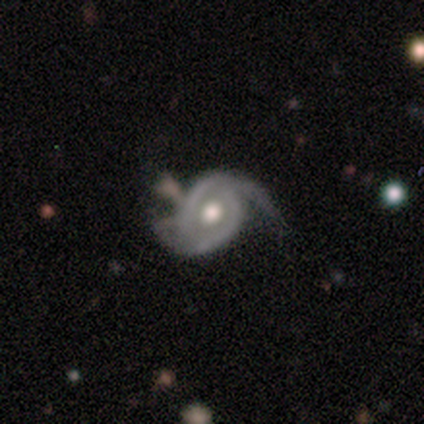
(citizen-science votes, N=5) This is clearly a featured or disk galaxy (100%). It is clearly not viewed edge-on (100%). Bar: likely no (60%). Spiral arm pattern: clearly yes (100%). Spiral arm count: likely 2 (60%). Spiral winding: marginally tight (40%, tied with medium). Central bulge: likely moderate (60%). Merging: likely minor disturbance (60%).